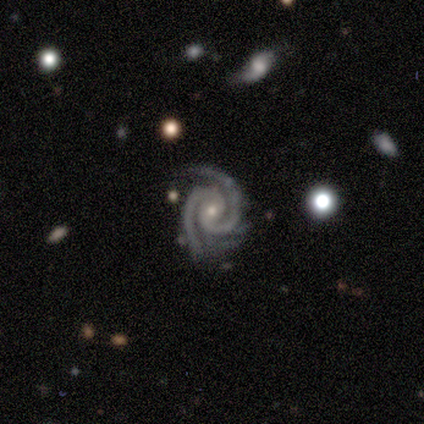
featured or disk 100%, smooth 0%, star or artifact 0%. Down the decision tree: edge-on disk — no (88%); bar — no (57%); spiral arms — yes (100%); spiral arm count — 2 (100%); spiral winding — tight (100%); bulge size — small (100%); merging — none (75%).